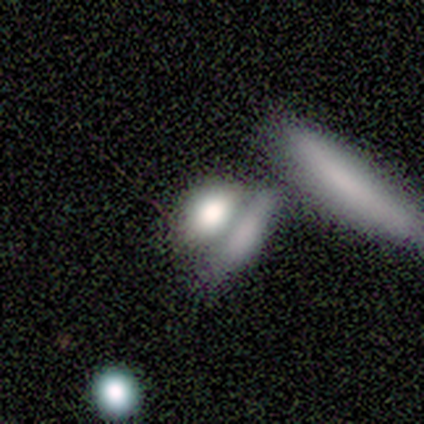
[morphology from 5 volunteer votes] Smooth or featured? smooth (60%)
How rounded? in between (67%)
Merging? none (50%)